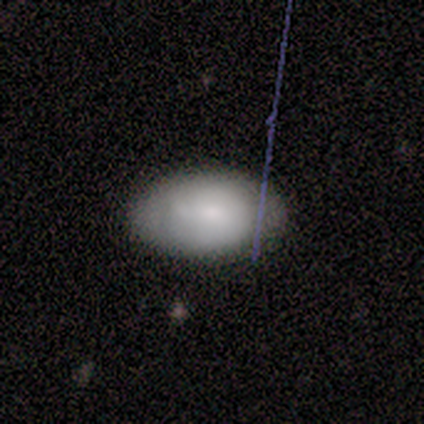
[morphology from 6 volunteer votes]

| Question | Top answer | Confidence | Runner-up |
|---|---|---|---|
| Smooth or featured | smooth | 83% | featured or disk (17%) |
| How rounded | in between | 100% | — |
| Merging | none | 83% | minor disturbance (17%) |